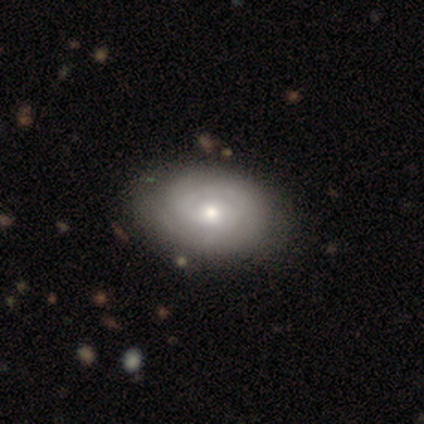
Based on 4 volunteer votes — Q: Smooth or featured?
A: featured or disk (75%); runner-up: smooth (25%)
Q: Edge-on disk?
A: no (100%)
Q: Bar?
A: no (100%)
Q: Spiral arms?
A: yes (67%); runner-up: no (33%)
Q: Spiral winding?
A: tight (50%); tied with: medium (50%)
Q: Spiral arm count?
A: can't tell (100%)
Q: Bulge size?
A: small (100%)
Q: Merging?
A: none (75%); runner-up: minor disturbance (25%)